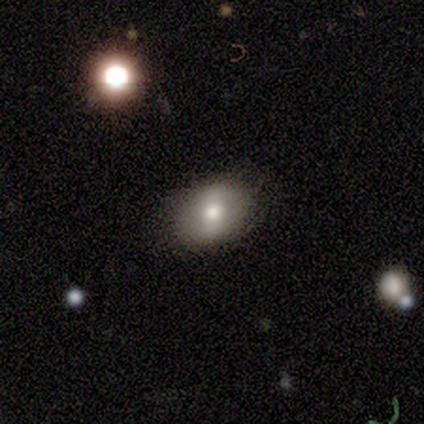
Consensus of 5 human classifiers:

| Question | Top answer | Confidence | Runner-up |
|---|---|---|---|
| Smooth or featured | smooth | 80% | featured or disk (20%) |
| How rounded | round | 75% | in between (25%) |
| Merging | none | 100% | — |